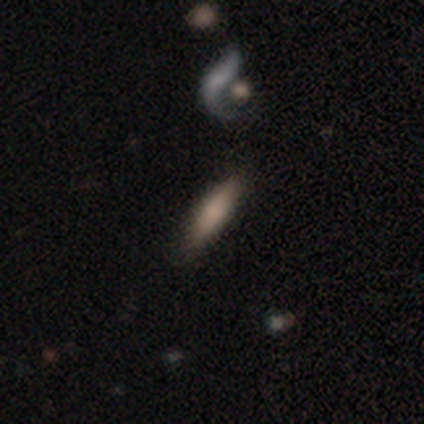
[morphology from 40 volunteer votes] smooth 80%, featured or disk 18%, star or artifact 2%. Down the decision tree: how rounded — cigar-shaped (81%); merging — none (64%).